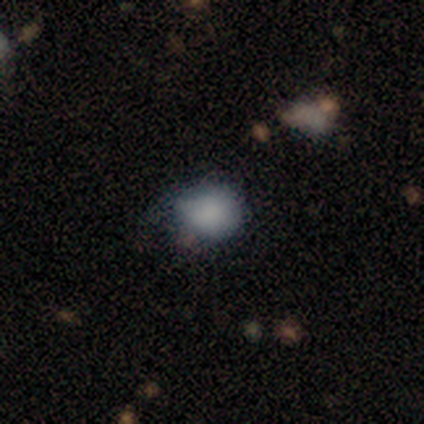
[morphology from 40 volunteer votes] Volunteers were most divided on "merging" (2-way tie): none: 44%, minor disturbance: 44%, major disturbance: 11%, merger: 0%. More confident: how rounded — round (83%); smooth or featured — smooth (75%).